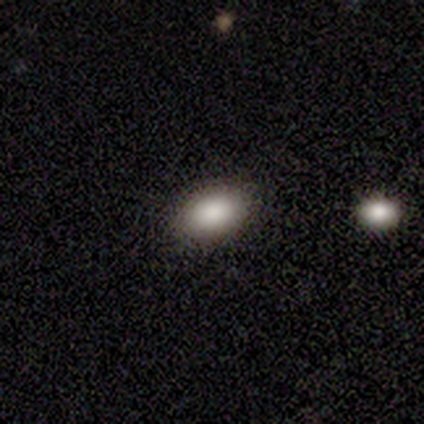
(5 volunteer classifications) Smooth or featured? smooth (80%)
How rounded? in between (100%)
Merging? none (80%)